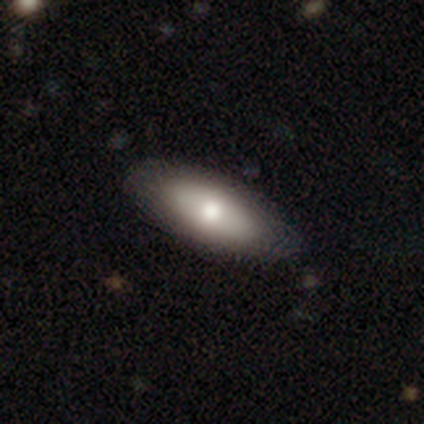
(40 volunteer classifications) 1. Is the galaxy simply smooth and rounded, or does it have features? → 65% smooth, 30% featured or disk, 5% star or artifact.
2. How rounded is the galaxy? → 85% in between, 15% cigar-shaped, 0% round.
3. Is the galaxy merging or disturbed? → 66% none, 5% minor disturbance, 0% major disturbance, 0% merger.